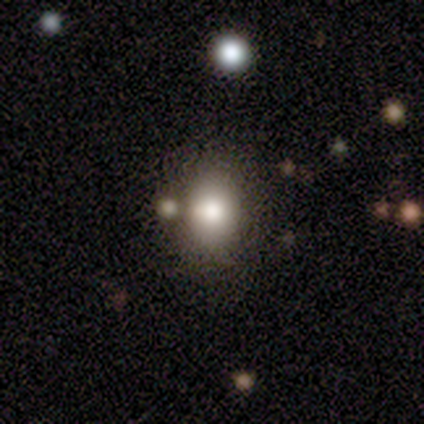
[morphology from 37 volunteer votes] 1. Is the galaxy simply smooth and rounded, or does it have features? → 86% smooth, 11% featured or disk, 3% star or artifact.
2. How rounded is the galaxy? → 69% in between, 31% round, 0% cigar-shaped.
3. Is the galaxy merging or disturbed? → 53% none, 28% merger, 8% minor disturbance, 0% major disturbance.